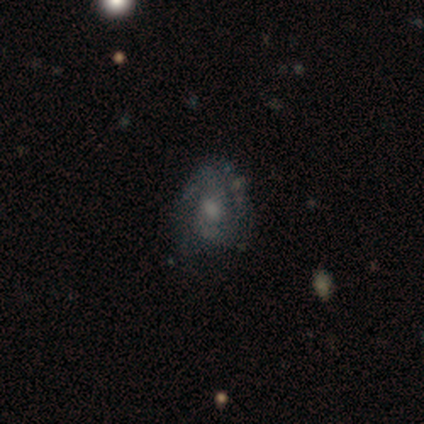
Smooth or featured? featured or disk (59%)
Edge-on disk? no (100%)
Bar? no (55%)
Spiral arms? yes (80%)
Spiral winding? medium (69%)
Spiral arm count? 2 (62%)
Bulge size? small (50%)
Merging? none (45%)